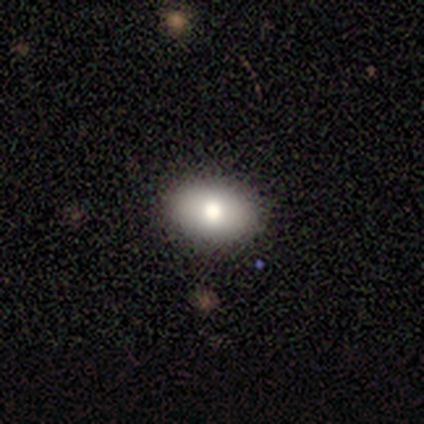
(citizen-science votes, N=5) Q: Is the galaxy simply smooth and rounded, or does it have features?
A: smooth — 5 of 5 (100%).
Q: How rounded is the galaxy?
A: in between — 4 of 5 (80%).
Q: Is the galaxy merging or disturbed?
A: none — 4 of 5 (80%).